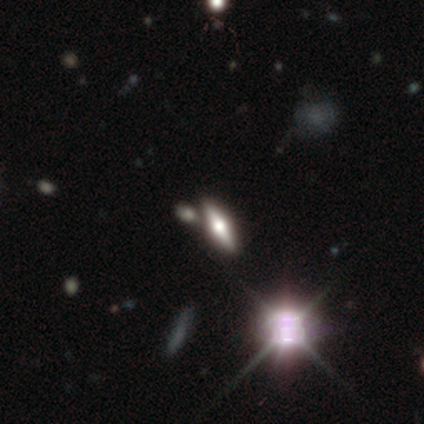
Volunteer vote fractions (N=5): This is clearly a featured or disk galaxy (80%). It is clearly viewed edge-on (100%). Edge-on bulge: likely rounded (75%). Merging: clearly none (100%).